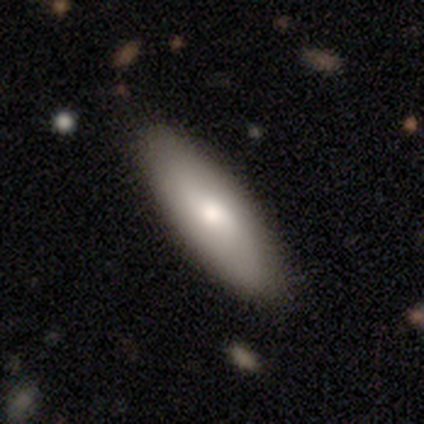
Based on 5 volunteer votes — A smooth galaxy with no disk features (60%) that is in between round and cigar-shaped (67%).

Vote fractions:
- Smooth or featured? smooth: 60% / featured or disk: 40% / star or artifact: 0%
- How rounded? in between: 67% / cigar-shaped: 33% / round: 0%
- Merging? none: 80% / merger: 20% / minor disturbance: 0% / major disturbance: 0%